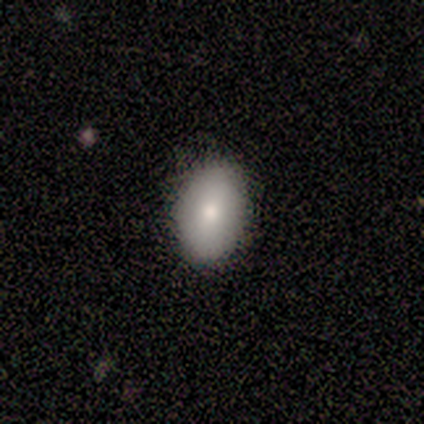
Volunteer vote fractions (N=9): Morphology: type=smooth (78%); roundness=in between (86%); merging=none (100%).